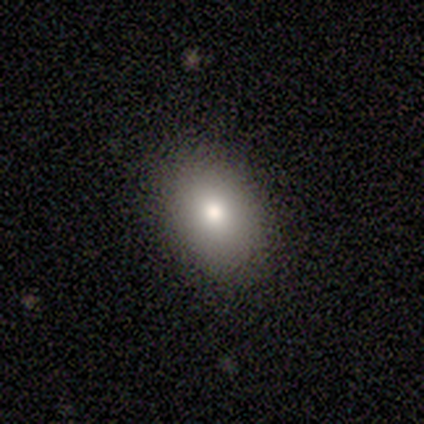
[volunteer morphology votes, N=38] Overall: smooth (74%). How rounded: in between (75%). Merging: none (91%).